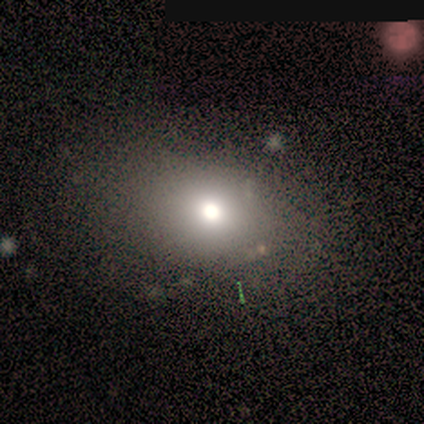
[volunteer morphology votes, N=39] This is likely a smooth galaxy (77%). How rounded: possibly in between (53%). Merging: clearly none (81%).